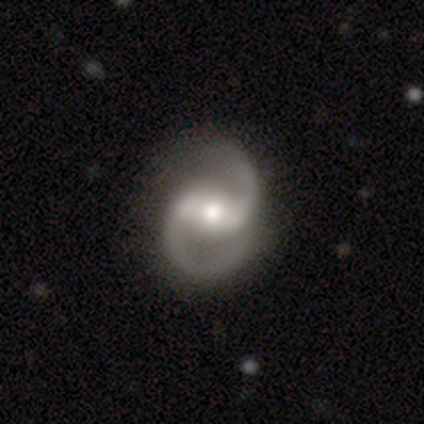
Smooth or featured? 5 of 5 (100%) said featured or disk. Edge-on disk? 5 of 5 (100%) said no. Bar? 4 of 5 (80%) said strong. Spiral arms? 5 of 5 (100%) said yes. Spiral winding? 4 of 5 (80%) said medium. Spiral arm count? 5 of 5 (100%) said 2. Bulge size? 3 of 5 (60%) said moderate. Merging? 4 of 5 (80%) said none.